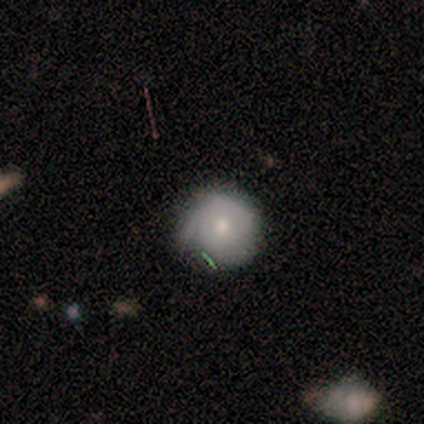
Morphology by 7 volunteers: Volunteers were most divided on "smooth or featured": smooth: 71%, featured or disk: 29%, star or artifact: 0%. More confident: how rounded — round (100%); merging — none (71%).